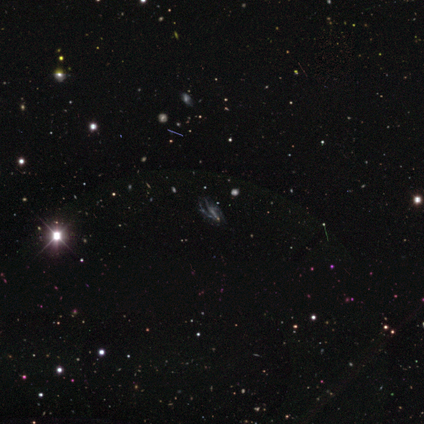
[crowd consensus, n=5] Smooth or featured? 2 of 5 (40%, tied with star or artifact) said featured or disk. Edge-on disk? 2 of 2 (100%) said no. Bar? 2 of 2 (100%) said no. Spiral arms? 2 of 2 (100%) said no. Bulge size? 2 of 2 (100%) said small. Merging? 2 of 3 (67%) said none.